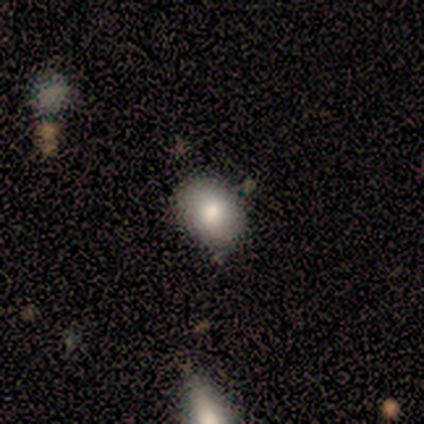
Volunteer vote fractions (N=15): Smooth or featured? 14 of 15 (93%) said smooth. How rounded? 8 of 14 (57%) said round. Merging? 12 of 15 (80%) said none.